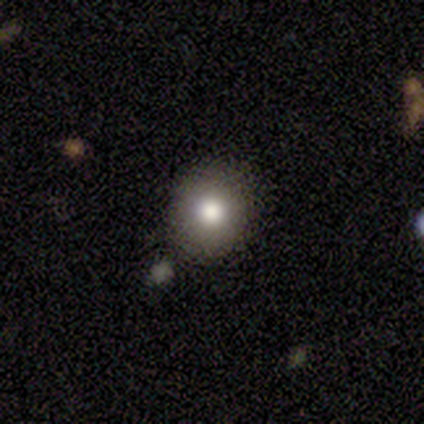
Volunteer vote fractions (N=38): Q: Smooth or featured?
A: smooth (79%); runner-up: featured or disk (16%)
Q: How rounded?
A: round (83%); runner-up: in between (17%)
Q: Merging?
A: none (92%); runner-up: minor disturbance (6%)